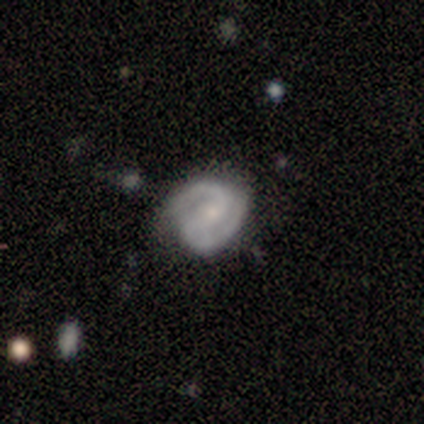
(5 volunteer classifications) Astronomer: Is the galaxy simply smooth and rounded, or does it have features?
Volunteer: featured or disk — 100%.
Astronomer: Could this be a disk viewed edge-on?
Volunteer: no — 100%.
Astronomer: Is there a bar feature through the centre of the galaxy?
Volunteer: weak — 60% (runner-up: no, 40%).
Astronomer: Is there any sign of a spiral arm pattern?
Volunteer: yes — 100%.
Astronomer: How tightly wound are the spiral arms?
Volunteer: tight — 60%.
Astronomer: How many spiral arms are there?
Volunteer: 2 — 100%.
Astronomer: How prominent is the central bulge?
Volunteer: small — 60%.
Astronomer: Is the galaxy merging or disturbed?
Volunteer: none — 100%.